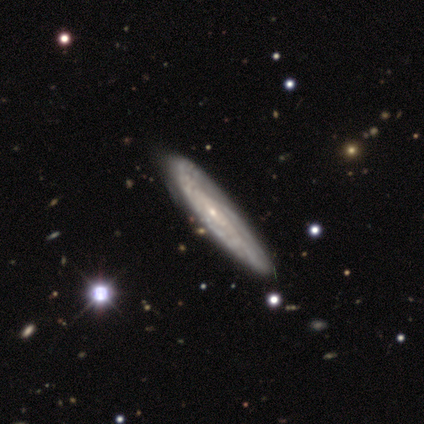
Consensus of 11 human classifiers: This appears to be a featured or disk galaxy (55%) viewed edge-on (50%, tied with no) with no central bulge (100%). Merging: none (30%).